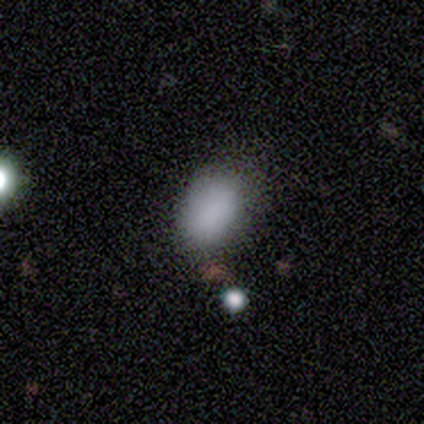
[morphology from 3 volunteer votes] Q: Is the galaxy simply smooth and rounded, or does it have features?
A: smooth — 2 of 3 (67%).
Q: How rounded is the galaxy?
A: round — 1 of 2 (50%, tied with in between).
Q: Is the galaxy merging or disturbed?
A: none — 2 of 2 (100%).